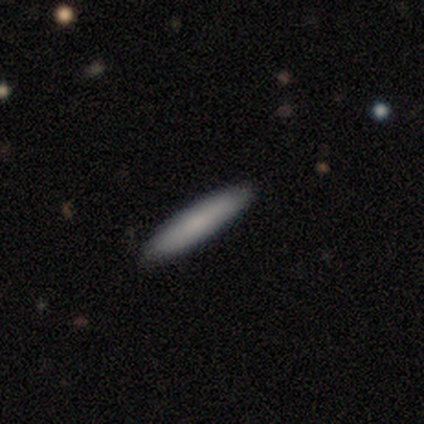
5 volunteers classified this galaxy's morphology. Smooth or featured?
  - featured or disk: 60% *
  - smooth: 40%
  - star or artifact: 0%
Edge-on disk?
  - yes: 67% *
  - no: 33%
Edge-on bulge?
  - none: 100% *
  - boxy: 0%
  - rounded: 0%
Merging?
  - none: 80% *
  - minor disturbance: 20%
  - major disturbance: 0%
  - merger: 0%